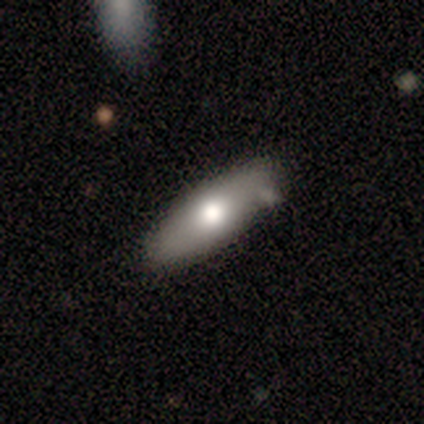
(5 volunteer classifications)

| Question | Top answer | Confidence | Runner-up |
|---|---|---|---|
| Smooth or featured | smooth | 60% | featured or disk (40%) |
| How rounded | cigar-shaped | 67% | in between (33%) |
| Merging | none | 80% | minor disturbance (20%) |